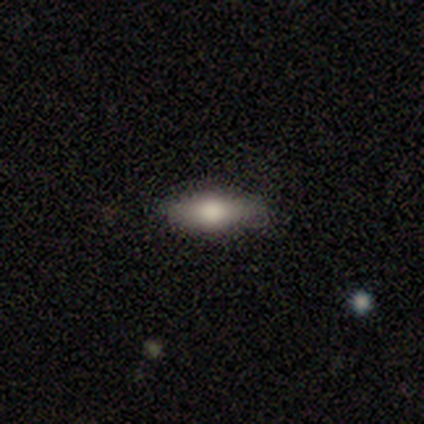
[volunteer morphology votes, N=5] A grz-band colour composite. It shows a smooth galaxy with no disk features (60%) that is in between round and cigar-shaped (100%). Merging: none (67%).